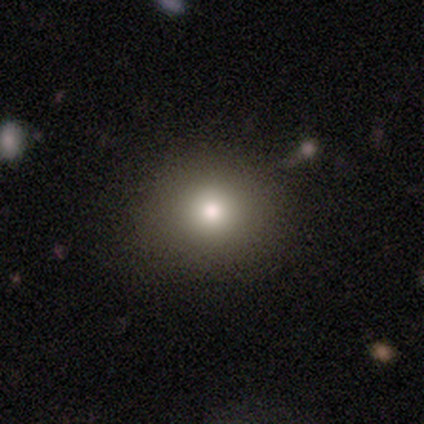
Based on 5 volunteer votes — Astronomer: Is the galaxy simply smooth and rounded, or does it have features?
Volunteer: smooth — 80%.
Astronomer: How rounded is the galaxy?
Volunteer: round — 100%.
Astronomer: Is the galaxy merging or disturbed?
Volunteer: none — 60% (runner-up: minor disturbance, 40%).